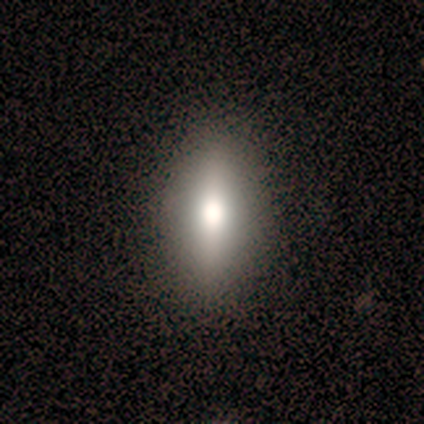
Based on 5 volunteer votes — Overall: smooth (40%, tied with star or artifact). How rounded: in between (50%, tied with cigar-shaped). Merging: none (100%).